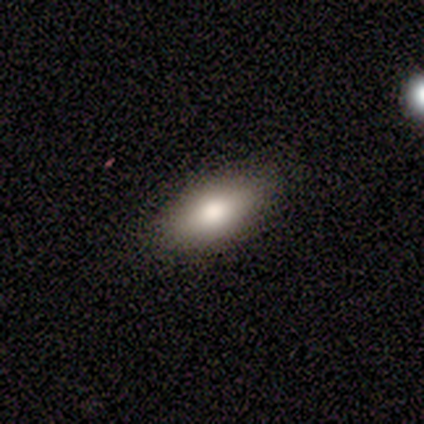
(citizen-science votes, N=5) Smooth or featured: smooth — 80% (featured or disk — 20%)
How rounded: in between — 100%
Merging: none — 100%